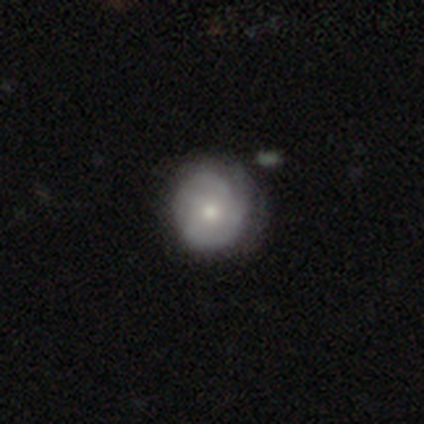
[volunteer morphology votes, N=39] type=featured or disk (51%); edge-on=no (100%); bar=no (80%); spiral arms=yes (80%); winding=tight (56%); arm count=can't tell (44%); bulge=moderate (55%); merging=none (54%).